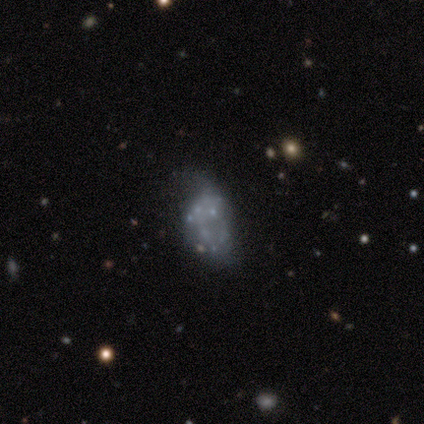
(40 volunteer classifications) smooth_or_featured: featured or disk (p=0.57) [alt: smooth p=0.28]
disk_edge_on: no (p=1.00)
bar: no (p=0.96) [alt: weak p=0.04]
has_spiral_arms: no (p=1.00)
bulge_size: none (p=0.96) [alt: moderate p=0.04]
merging: none (p=0.53) [alt: minor disturbance p=0.26]